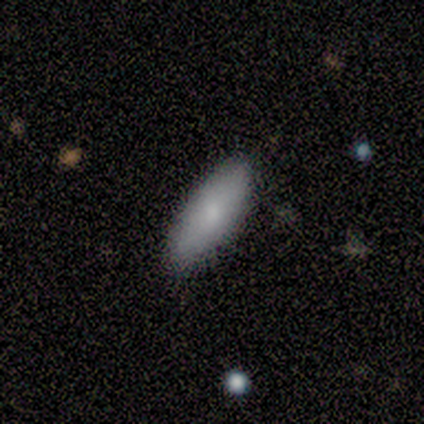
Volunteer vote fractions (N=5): A smooth galaxy with no disk features (80%) that is in between round and cigar-shaped (75%). Merging: none (80%).